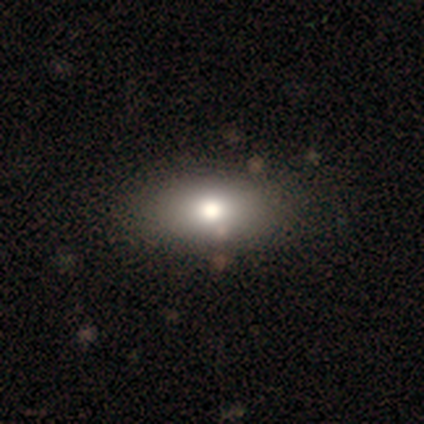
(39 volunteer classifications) smooth_or_featured: smooth (p=0.72) [alt: featured or disk p=0.18]
how_rounded: in between (p=1.00)
merging: none (p=0.71) [alt: minor disturbance p=0.09]